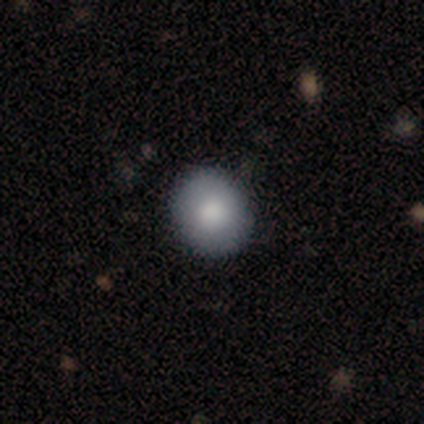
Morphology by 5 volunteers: smooth-or-featured: smooth: 60% | featured or disk: 40% | star or artifact: 0%
  how-rounded: round: 67% | in between: 33% | cigar-shaped: 0%
  merging: none: 80% | minor disturbance: 20% | major disturbance: 0% | merger: 0%